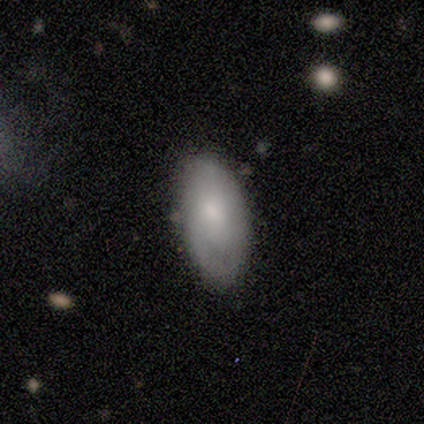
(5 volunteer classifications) Volunteers were most divided on "merging": none: 60%, minor disturbance: 40%, major disturbance: 0%, merger: 0%. More confident: how rounded — in between (100%); smooth or featured — smooth (80%).